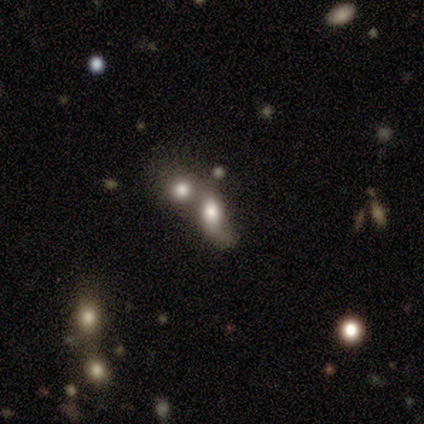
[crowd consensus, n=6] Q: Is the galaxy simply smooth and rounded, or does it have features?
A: smooth — 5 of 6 (83%).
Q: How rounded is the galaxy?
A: in between — 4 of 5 (80%).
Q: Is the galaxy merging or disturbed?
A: merger — 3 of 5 (60%).